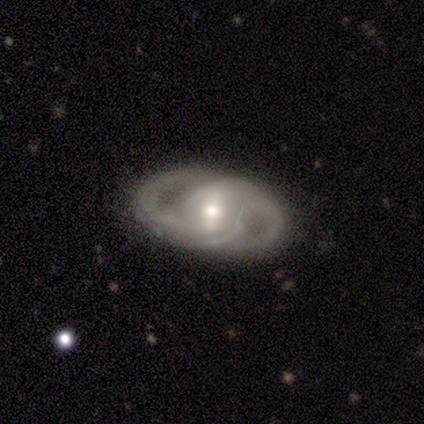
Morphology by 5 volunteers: Smooth or featured?
  - featured or disk: 100% *
  - smooth: 0%
  - star or artifact: 0%
Edge-on disk?
  - no: 100% *
  - yes: 0%
Bar?
  - weak: 40% * (tied)
  - no: 40% * (tied)
  - strong: 20%
Spiral arms?
  - yes: 60% *
  - no: 40%
Spiral winding?
  - tight: 33% * (tied)
  - medium: 33% * (tied)
  - loose: 33% * (tied)
Spiral arm count?
  - 2: 100% *
  - 1: 0%
  - 3: 0%
  - 4: 0%
  - more than 4: 0%
  - can't tell: 0%
Bulge size?
  - small: 80% *
  - moderate: 20%
  - dominant: 0%
  - large: 0%
  - none: 0%
Merging?
  - none: 100% *
  - minor disturbance: 0%
  - major disturbance: 0%
  - merger: 0%